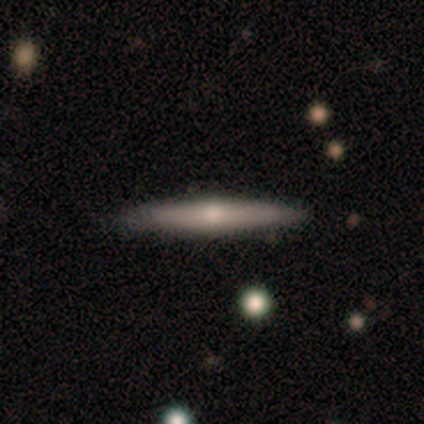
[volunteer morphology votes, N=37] featured or disk 51%, smooth 30%, star or artifact 19%. Down the decision tree: edge-on disk — yes (95%); edge-on bulge — rounded (94%); merging — none (90%).